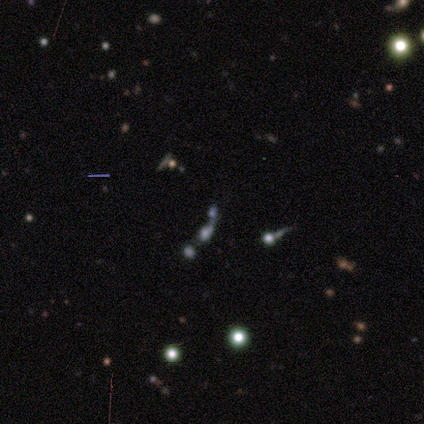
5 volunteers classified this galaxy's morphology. Smooth or featured? smooth (60%)
How rounded? cigar-shaped (67%)
Merging? merger (67%)